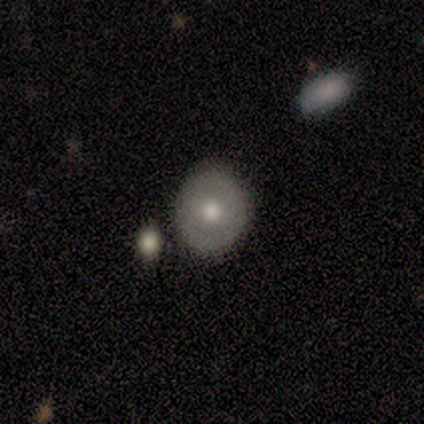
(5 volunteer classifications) smooth_or_featured: smooth (p=1.00)
how_rounded: round (p=0.80) [alt: in between p=0.20]
merging: none (p=0.60) [alt: merger p=0.40]